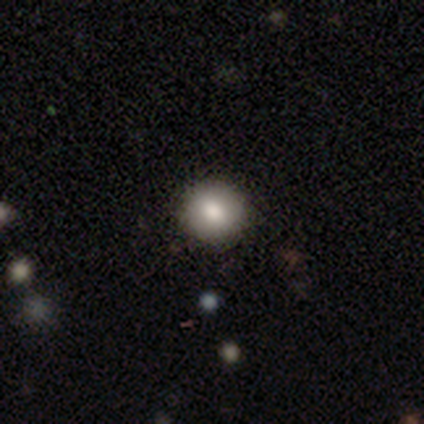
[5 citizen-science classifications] Q: Smooth or featured?
A: smooth (100%)
Q: How rounded?
A: round (100%)
Q: Merging?
A: none (100%)